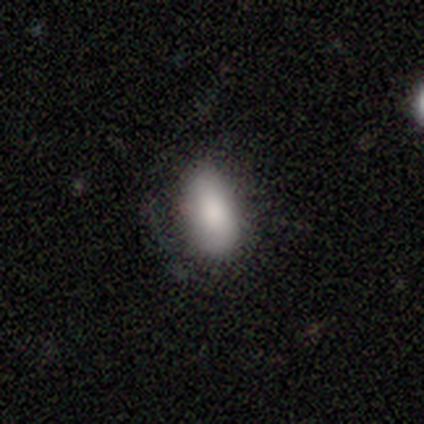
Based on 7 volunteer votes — A smooth galaxy with no disk features (100%) that is in between round and cigar-shaped (100%). Merging: none (57%).